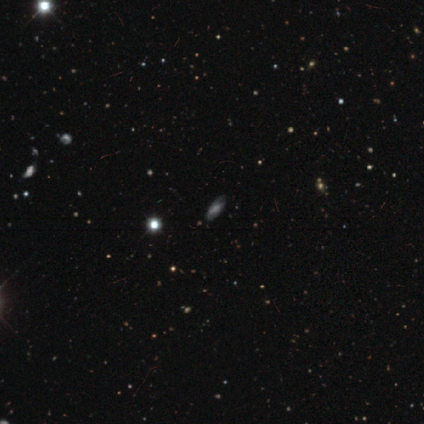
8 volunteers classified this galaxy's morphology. Smooth or featured?
  - smooth: 38% * (tied)
  - star or artifact: 38% * (tied)
  - featured or disk: 25%
How rounded?
  - in between: 100% *
  - round: 0%
  - cigar-shaped: 0%
Merging?
  - none: 80% *
  - minor disturbance: 20%
  - major disturbance: 0%
  - merger: 0%